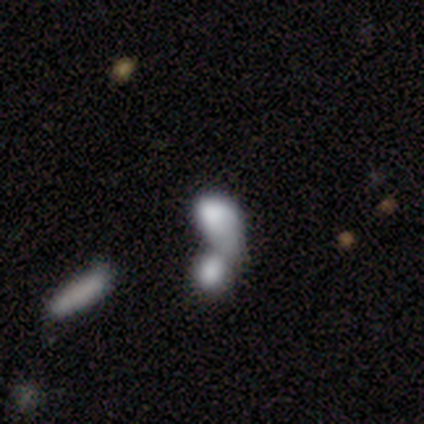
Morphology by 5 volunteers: Smooth or featured? smooth (60%)
How rounded? in between (100%)
Merging? merger (75%)